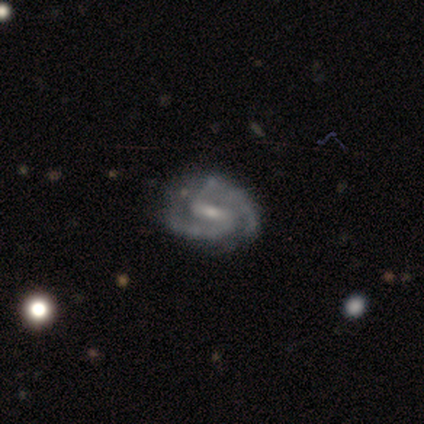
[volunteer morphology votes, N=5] Smooth or featured? 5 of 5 (100%) said featured or disk. Edge-on disk? 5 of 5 (100%) said no. Bar? 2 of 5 (40%, tied with no) said strong. Spiral arms? 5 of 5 (100%) said yes. Spiral winding? 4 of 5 (80%) said medium. Spiral arm count? 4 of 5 (80%) said 2. Bulge size? 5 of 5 (100%) said small. Merging? 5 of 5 (100%) said none.